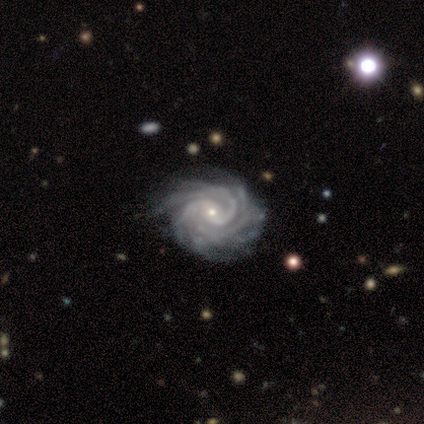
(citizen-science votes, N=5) smooth-or-featured: featured or disk: 100% | smooth: 0% | star or artifact: 0%
  disk-edge-on: no: 100% | yes: 0%
    bar: weak: 60% | no: 40% | strong: 0%
    has-spiral-arms: yes: 100% | no: 0%
      spiral-winding: tight: 100% | medium: 0% | loose: 0%
      spiral-arm-count: more than 4: 60% | 2: 20% | 3: 20% | 1: 0% | 4: 0% | can't tell: 0%
    bulge-size: small: 80% | moderate: 20% | dominant: 0% | large: 0% | none: 0%
  merging: none: 80% | minor disturbance: 20% | major disturbance: 0% | merger: 0%